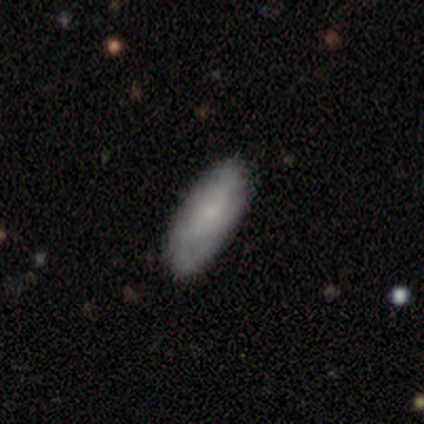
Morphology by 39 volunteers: A featured or disk galaxy (51%) with no bar (89%), tight (73%) spiral arms (58%) and a small central bulge (68%).

Vote fractions:
- Smooth or featured? featured or disk: 51% / smooth: 49% / star or artifact: 0%
- Edge-on disk? no: 95% / yes: 5%
- Bar? no: 89% / weak: 11% / strong: 0%
- Spiral arms? yes: 58% / no: 42%
- Spiral winding? tight: 73% / medium: 18% / loose: 9%
- Spiral arm count? can't tell: 64% / 2: 27% / more than 4: 9% / 1: 0% / 3: 0% / 4: 0%
- Bulge size? small: 68% / moderate: 16% / none: 16% / dominant: 0% / large: 0%
- Merging? none: 62% / minor disturbance: 5% / major disturbance: 5% / merger: 0%